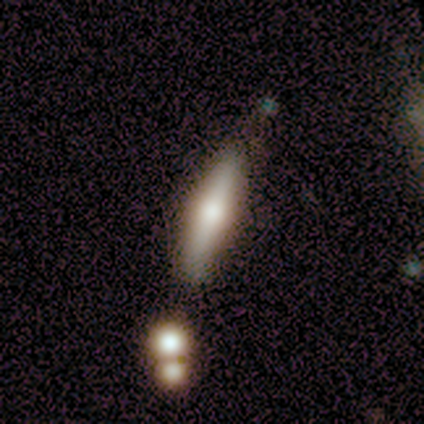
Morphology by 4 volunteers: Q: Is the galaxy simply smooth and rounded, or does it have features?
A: smooth — 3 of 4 (75%).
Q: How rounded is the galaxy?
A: cigar-shaped — 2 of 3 (67%).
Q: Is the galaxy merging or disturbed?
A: none — 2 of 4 (50%).